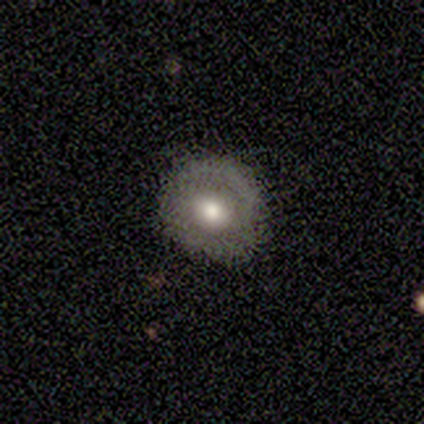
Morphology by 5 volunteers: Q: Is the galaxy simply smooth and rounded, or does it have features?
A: featured or disk — 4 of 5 (80%).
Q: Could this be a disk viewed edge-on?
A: no — 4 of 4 (100%).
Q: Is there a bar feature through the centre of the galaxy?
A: weak — 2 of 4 (50%, tied with no).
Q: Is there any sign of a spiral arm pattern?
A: no — 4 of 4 (100%).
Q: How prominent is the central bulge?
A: moderate — 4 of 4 (100%).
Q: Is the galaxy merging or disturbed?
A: none — 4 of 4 (100%).